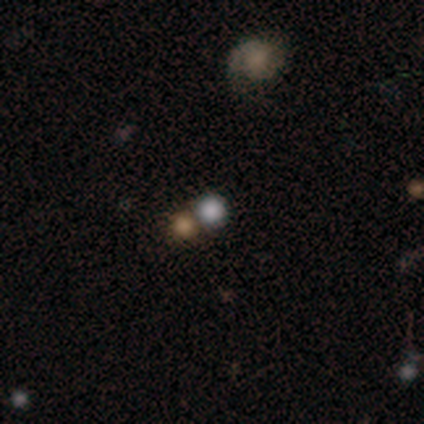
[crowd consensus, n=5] smooth_or_featured: smooth (p=0.60) [alt: featured or disk p=0.20]
how_rounded: round (p=1.00)
merging: none (p=1.00)